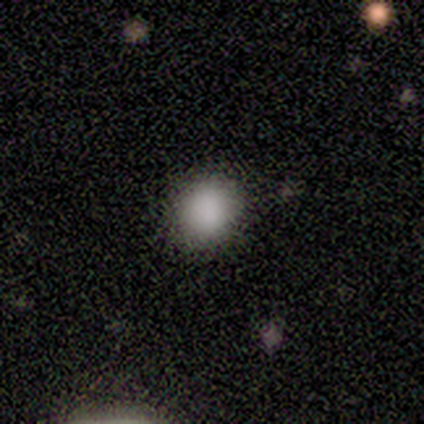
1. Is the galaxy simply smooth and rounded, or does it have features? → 92% smooth, 8% featured or disk, 0% star or artifact.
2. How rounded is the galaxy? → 73% round, 27% in between, 0% cigar-shaped.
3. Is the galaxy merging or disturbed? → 92% none, 8% minor disturbance, 0% major disturbance, 0% merger.